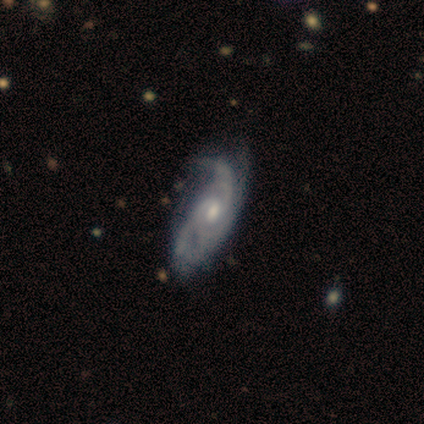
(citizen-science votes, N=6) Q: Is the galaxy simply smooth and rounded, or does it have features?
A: featured or disk — 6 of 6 (100%).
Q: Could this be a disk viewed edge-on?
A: no — 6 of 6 (100%).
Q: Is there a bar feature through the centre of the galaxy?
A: weak — 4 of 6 (67%).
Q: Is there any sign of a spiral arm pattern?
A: yes — 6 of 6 (100%).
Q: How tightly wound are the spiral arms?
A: medium — 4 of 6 (67%).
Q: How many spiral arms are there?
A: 3 — 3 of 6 (50%).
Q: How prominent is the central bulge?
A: moderate — 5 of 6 (83%).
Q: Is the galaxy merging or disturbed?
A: none — 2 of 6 (33%, tied with minor disturbance and major disturbance).